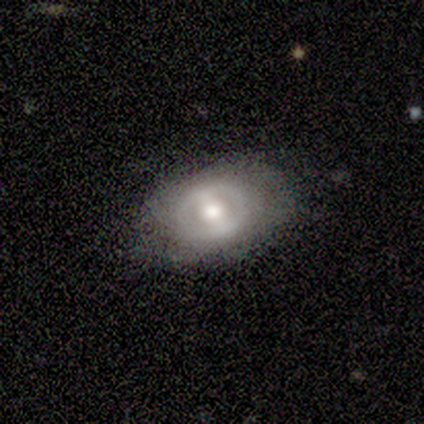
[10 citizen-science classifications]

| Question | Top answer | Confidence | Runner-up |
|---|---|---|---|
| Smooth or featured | featured or disk | 100% | — |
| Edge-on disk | no | 90% | yes (10%) |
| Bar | weak | 44% | strong (33%) |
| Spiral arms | no | 67% | yes (33%) |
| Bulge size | moderate | 78% | large (22%) |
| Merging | none | 70% | minor disturbance (30%) |